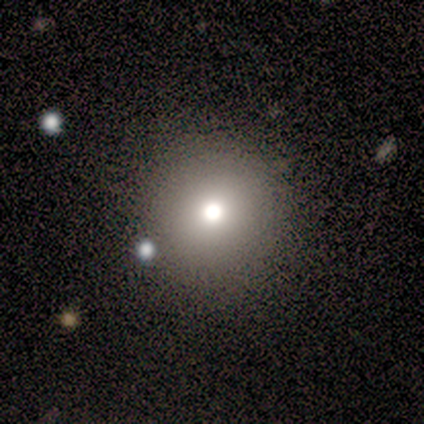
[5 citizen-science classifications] Smooth or featured?
  - smooth: 60% *
  - featured or disk: 20%
  - star or artifact: 20%
How rounded?
  - round: 100% *
  - in between: 0%
  - cigar-shaped: 0%
Merging?
  - none: 100% *
  - minor disturbance: 0%
  - major disturbance: 0%
  - merger: 0%